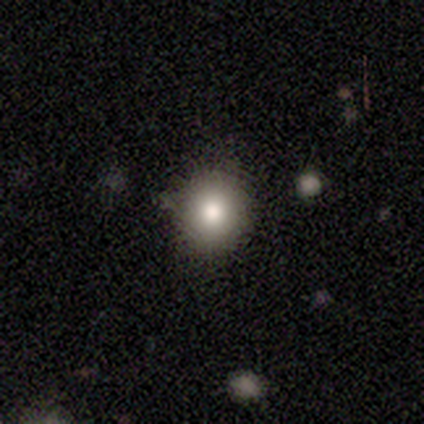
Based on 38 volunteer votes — A smooth galaxy with no disk features (87%) that is round (88%). Merging: none (66%).